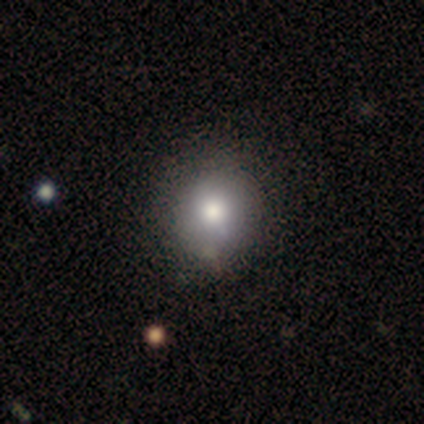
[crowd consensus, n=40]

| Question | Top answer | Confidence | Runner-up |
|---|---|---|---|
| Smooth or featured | smooth | 70% | star or artifact (20%) |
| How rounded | round | 86% | in between (14%) |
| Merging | none | 47% | minor disturbance (9%) |